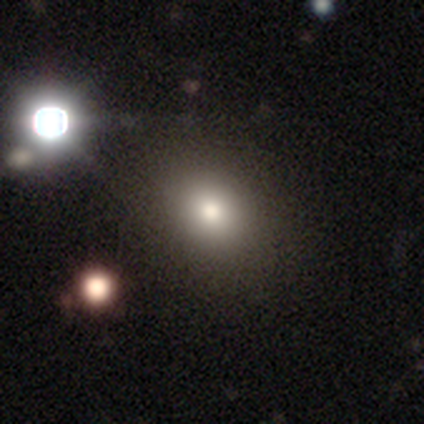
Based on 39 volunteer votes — Morphology: type=smooth (82%); roundness=round (75%); merging=none (69%).